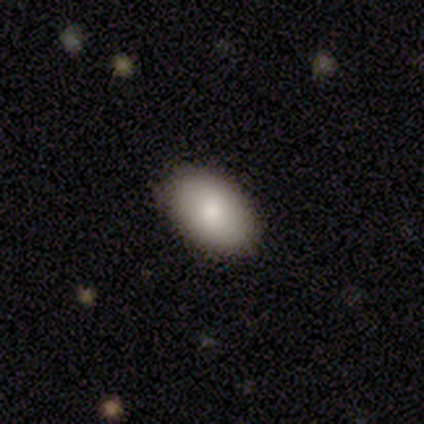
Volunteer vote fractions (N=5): Smooth or featured? smooth (80%)
How rounded? in between (100%)
Merging? none (100%)